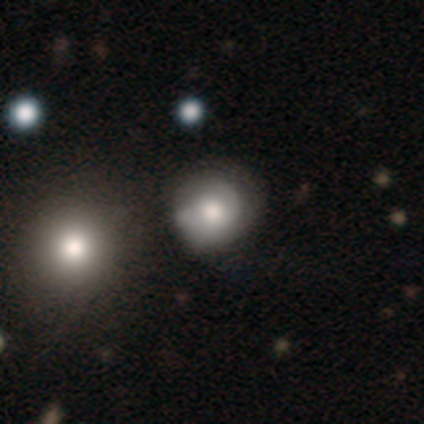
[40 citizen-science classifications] This appears to be a smooth galaxy with no disk features (50%) that is round (90%). Merging: none (36%).